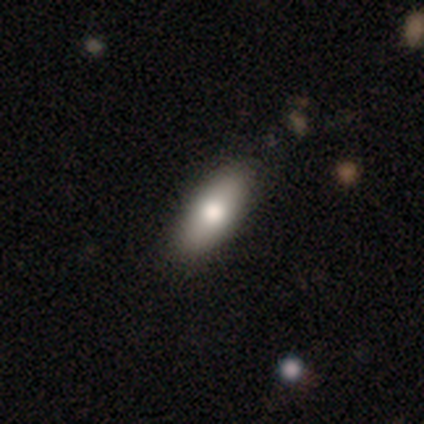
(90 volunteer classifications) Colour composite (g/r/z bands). It shows a smooth galaxy with no disk features (73%) that is in between round and cigar-shaped (82%). Merging: none (84%).